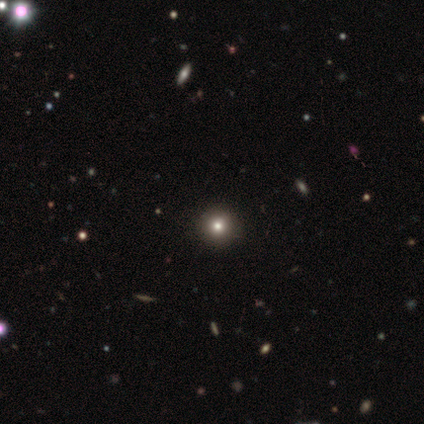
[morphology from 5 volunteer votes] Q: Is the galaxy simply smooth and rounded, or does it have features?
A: smooth — 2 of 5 (40%, tied with star or artifact).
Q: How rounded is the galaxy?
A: round — 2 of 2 (100%).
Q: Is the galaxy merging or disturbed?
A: none — 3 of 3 (100%).